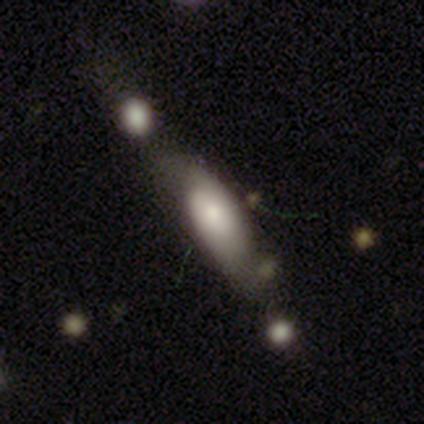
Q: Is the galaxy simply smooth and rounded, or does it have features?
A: featured or disk — 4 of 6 (67%).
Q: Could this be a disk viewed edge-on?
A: no — 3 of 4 (75%).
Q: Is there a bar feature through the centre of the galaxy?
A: no — 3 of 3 (100%).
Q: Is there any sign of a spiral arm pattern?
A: no — 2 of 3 (67%).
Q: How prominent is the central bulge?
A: small — 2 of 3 (67%).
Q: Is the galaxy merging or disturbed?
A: minor disturbance — 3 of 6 (50%).